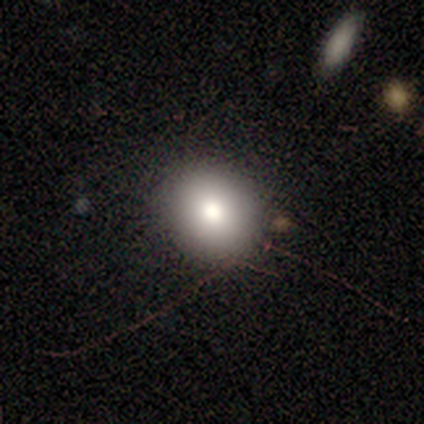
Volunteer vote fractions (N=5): This is clearly a smooth galaxy (80%). How rounded: possibly round (50%, tied with in between). Merging: clearly none (100%).